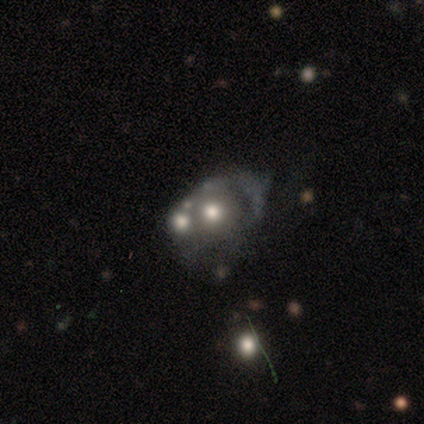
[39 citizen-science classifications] Overall: featured or disk (46%; smooth 33%). Edge-on disk: no (100%). Bar: no (94%). Spiral arms: no (89%). Bulge size: moderate (56%; large 22%). Merging: merger (39%; minor disturbance 26%).